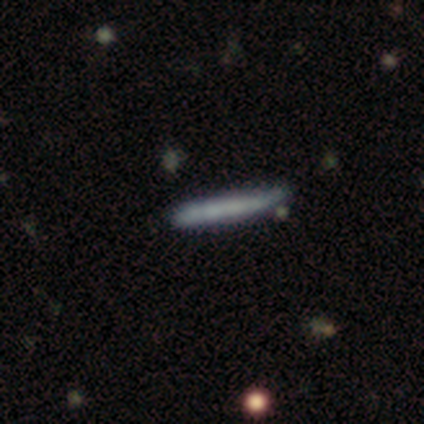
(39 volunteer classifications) smooth_or_featured: smooth (p=0.46) [tied with: featured or disk p=0.46]
how_rounded: cigar-shaped (p=1.00)
merging: none (p=0.67) [alt: minor disturbance p=0.28]